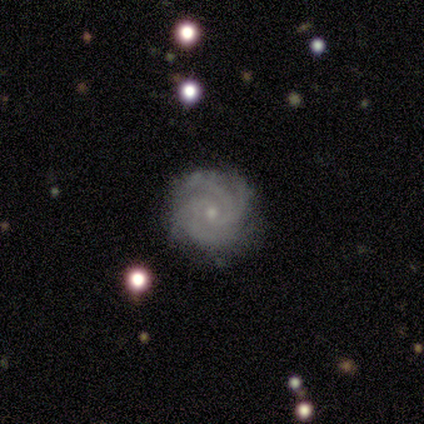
This is clearly a featured or disk galaxy (80%). It is clearly not viewed edge-on (100%). Bar: clearly no (100%). Spiral arm pattern: clearly yes (100%). Spiral arm count: likely 4 (75%). Spiral winding: possibly tight (50%, tied with medium). Central bulge: clearly small (100%). Merging: clearly none (100%).